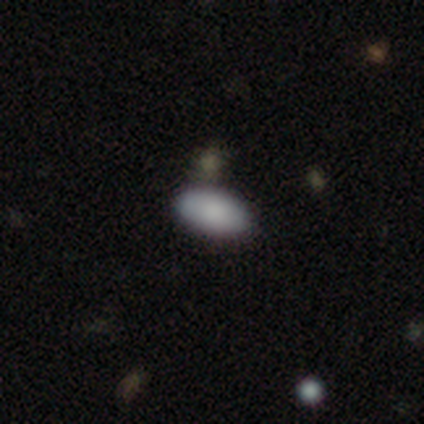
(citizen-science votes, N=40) This appears to be a smooth galaxy with no disk features (98%) that is in between round and cigar-shaped (97%). Merging: none (62%).